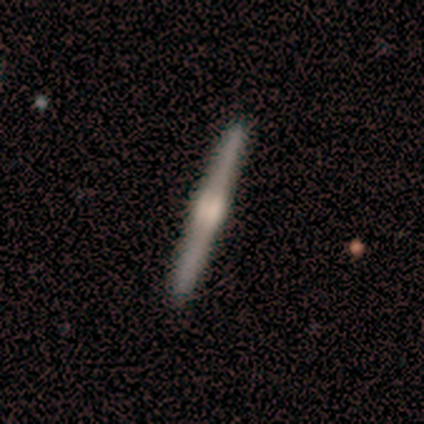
Volunteers were most divided on "edge-on bulge": rounded: 59%, boxy: 38%, none: 3%. More confident: edge-on disk — yes (97%); smooth or featured — featured or disk (77%); merging — none (58%).